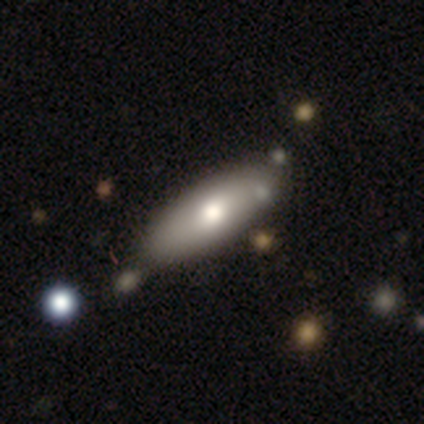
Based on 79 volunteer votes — Smooth or featured?
  - smooth: 73% *
  - featured or disk: 22%
  - star or artifact: 5%
How rounded?
  - in between: 72% *
  - cigar-shaped: 28%
  - round: 0%
Merging?
  - none: 33% *
  - minor disturbance: 15%
  - merger: 8%
  - major disturbance: 1%